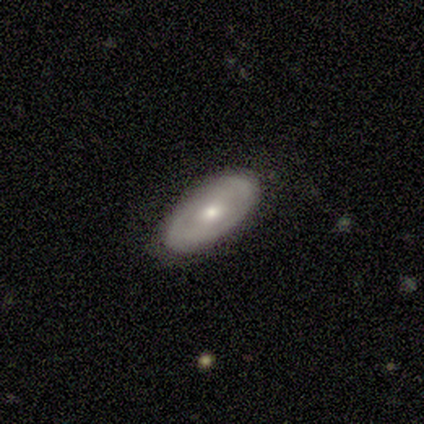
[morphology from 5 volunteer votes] Smooth or featured? 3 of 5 (60%) said smooth. How rounded? 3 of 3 (100%) said in between. Merging? 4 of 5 (80%) said none.